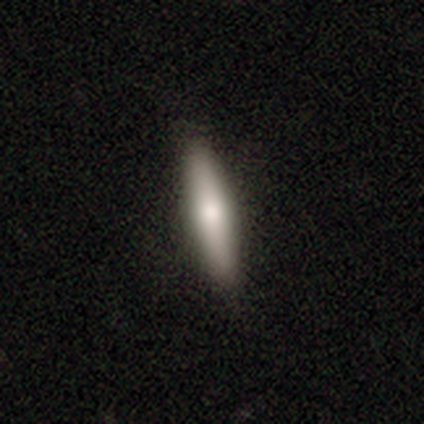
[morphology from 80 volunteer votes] Smooth or featured: smooth — 72% (featured or disk — 22%)
How rounded: cigar-shaped — 81% (in between — 19%)
Merging: none — 53% (minor disturbance — 5%)